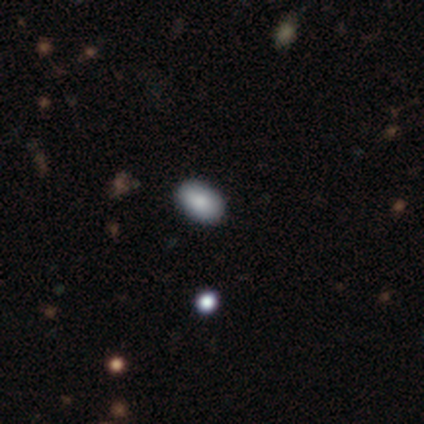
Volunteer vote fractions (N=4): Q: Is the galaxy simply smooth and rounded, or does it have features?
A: smooth — 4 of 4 (100%).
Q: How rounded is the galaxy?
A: in between — 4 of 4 (100%).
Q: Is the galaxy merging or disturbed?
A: none — 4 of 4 (100%).